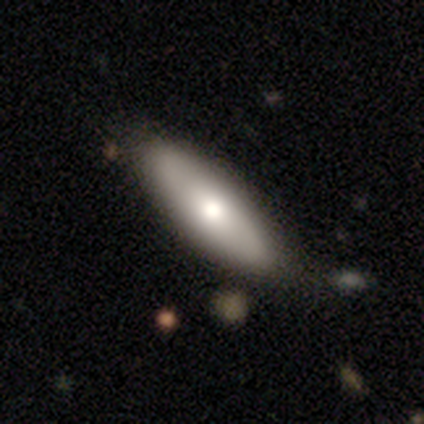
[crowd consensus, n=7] Morphology: type=smooth (86%); roundness=cigar-shaped (67%); merging=none (86%).